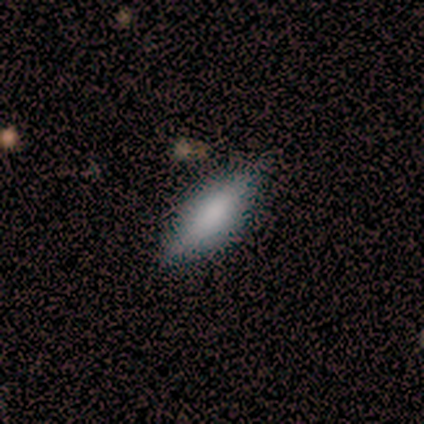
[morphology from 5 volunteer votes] smooth_or_featured: smooth (p=0.60) [alt: featured or disk p=0.40]
how_rounded: in between (p=0.67) [alt: cigar-shaped p=0.33]
merging: none (p=1.00)